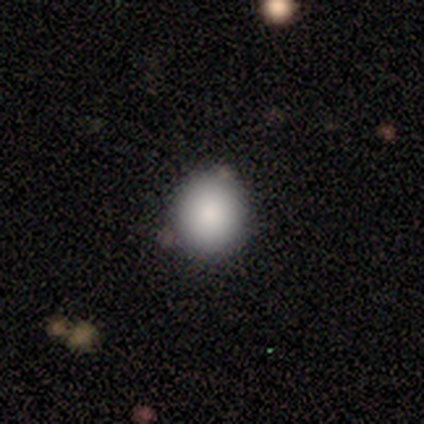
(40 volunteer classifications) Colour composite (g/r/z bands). It shows a smooth galaxy with no disk features (80%) that is round (97%). Merging: none (86%).